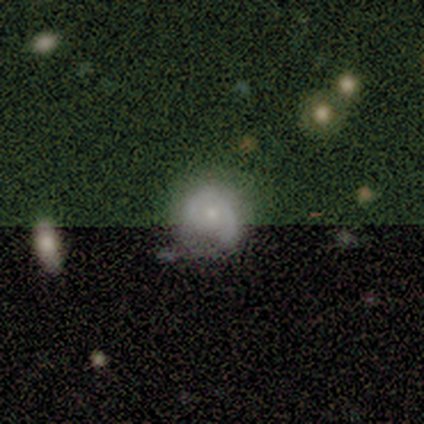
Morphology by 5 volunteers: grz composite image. It shows a featured or disk galaxy (60%) with no bar (100%), no spiral arms (100%) and a moderate central bulge (67%). Merging: none (60%).